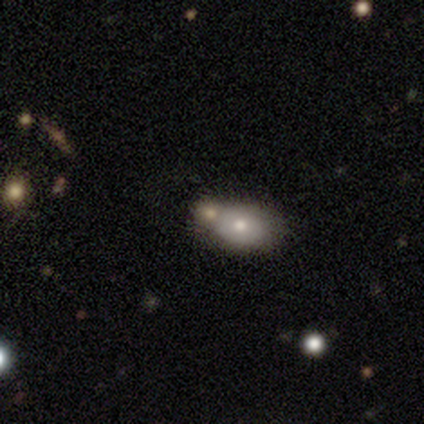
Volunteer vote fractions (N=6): Morphology: type=smooth (67%); roundness=in between (75%); merging=merger (80%).